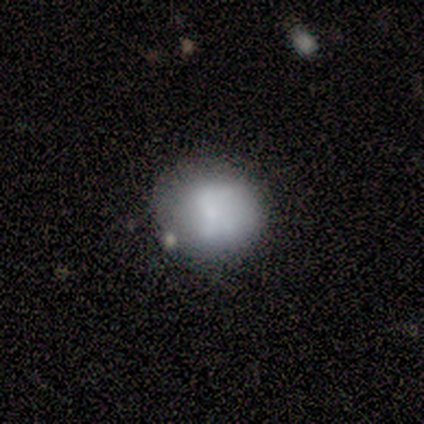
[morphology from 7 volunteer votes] Smooth or featured: smooth — 71% (featured or disk — 14%)
How rounded: round — 100%
Merging: none — 100%